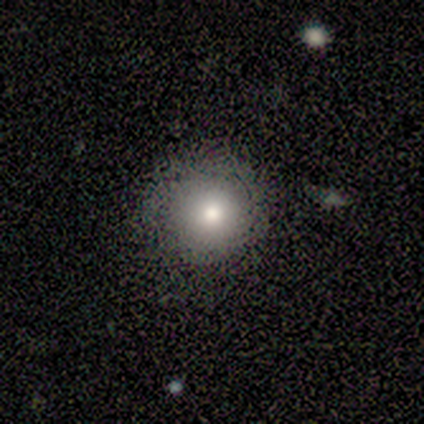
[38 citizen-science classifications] Volunteers were most divided on "smooth or featured": smooth: 74%, featured or disk: 13%, star or artifact: 13%. More confident: how rounded — round (96%); merging — none (85%).